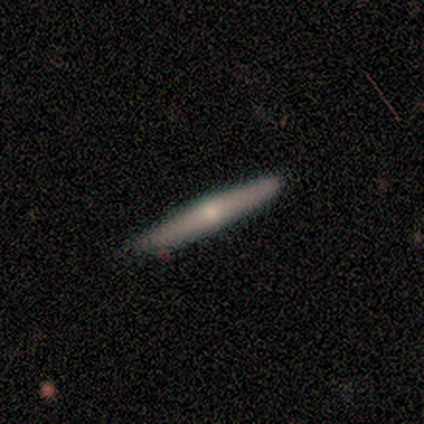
smooth-or-featured: smooth: 50% (tied) | featured or disk: 50% (tied) | star or artifact: 0%
  how-rounded: cigar-shaped: 100% | round: 0% | in between: 0%
  merging: none: 100% | minor disturbance: 0% | major disturbance: 0% | merger: 0%